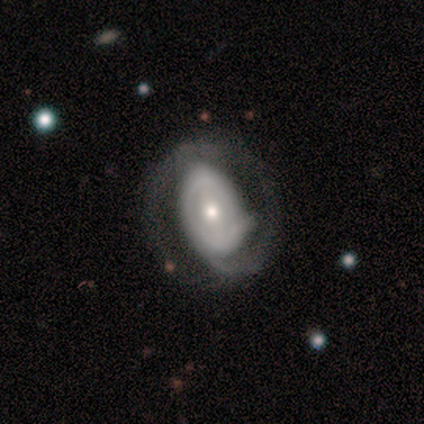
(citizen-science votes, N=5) This is clearly a featured or disk galaxy (100%). It is clearly not viewed edge-on (100%). Bar: likely strong (60%). Spiral arm pattern: clearly yes (80%). Spiral arm count: likely 2 (75%). Spiral winding: possibly medium (50%). Central bulge: marginally large (40%, tied with moderate). Merging: clearly none (80%).